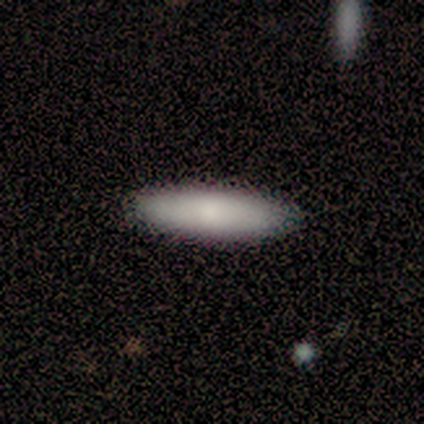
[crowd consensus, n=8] smooth_or_featured: smooth (p=0.88) [alt: featured or disk p=0.12]
how_rounded: cigar-shaped (p=0.86) [alt: in between p=0.14]
merging: none (p=1.00)